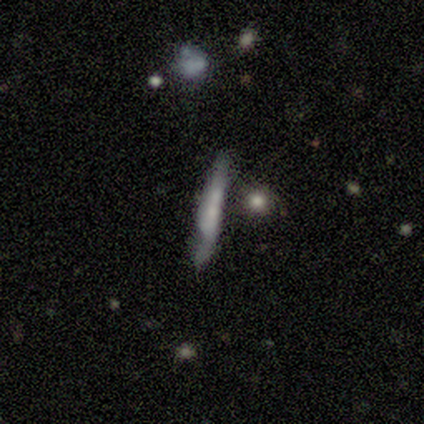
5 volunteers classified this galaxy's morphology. A smooth galaxy with no disk features (60%) that is cigar-shaped (100%).

Vote fractions:
- Smooth or featured? smooth: 60% / featured or disk: 20% / star or artifact: 20%
- How rounded? cigar-shaped: 100% / round: 0% / in between: 0%
- Merging? none: 100% / minor disturbance: 0% / major disturbance: 0% / merger: 0%